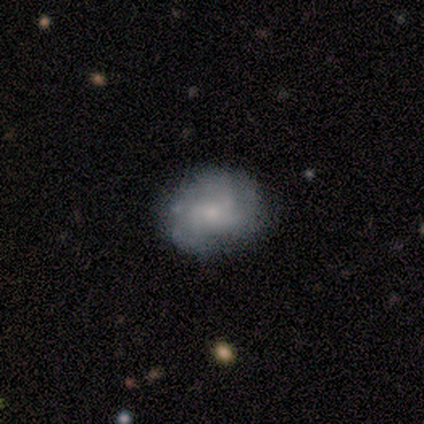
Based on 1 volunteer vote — smooth_or_featured: smooth (p=1.00)
how_rounded: round (p=1.00)
merging: none (p=1.00)